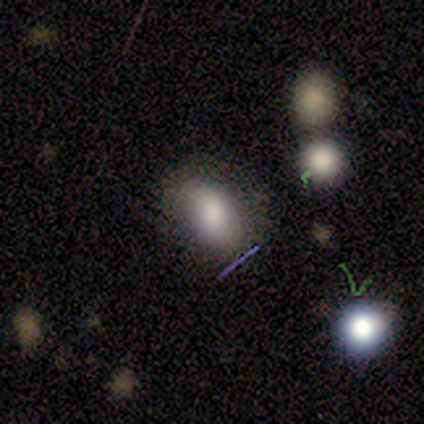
Smooth or featured? smooth (50%, tied with featured or disk)
How rounded? in between (100%)
Merging? minor disturbance (50%)